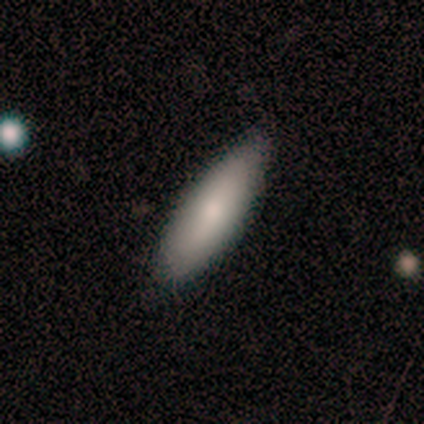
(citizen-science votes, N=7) Smooth or featured: smooth — 86% (featured or disk — 14%)
How rounded: cigar-shaped — 83% (in between — 17%)
Merging: none — 86% (minor disturbance — 14%)